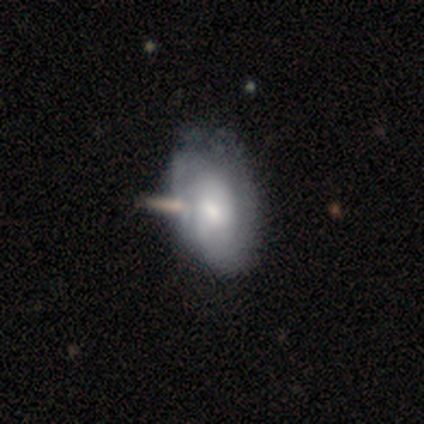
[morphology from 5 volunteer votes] type=featured or disk (80%); edge-on=no (100%); bar=weak (50%, tied with no); spiral arms=yes (75%); winding=medium (100%); arm count=1 (33%, tied with 3 and can't tell); bulge=moderate (75%); merging=none (60%).